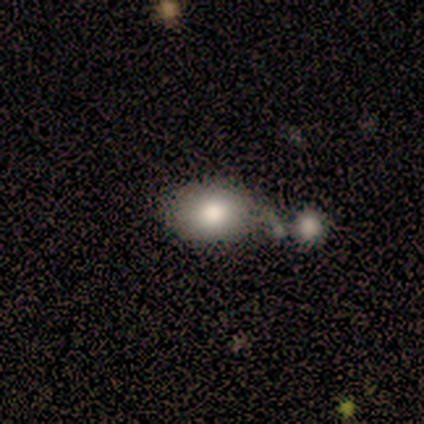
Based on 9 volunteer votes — smooth-or-featured: smooth: 78% | star or artifact: 22% | featured or disk: 0%
  how-rounded: in between: 57% | round: 43% | cigar-shaped: 0%
  merging: none: 29% (tied) | minor disturbance: 29% (tied) | merger: 29% (tied) | major disturbance: 14%